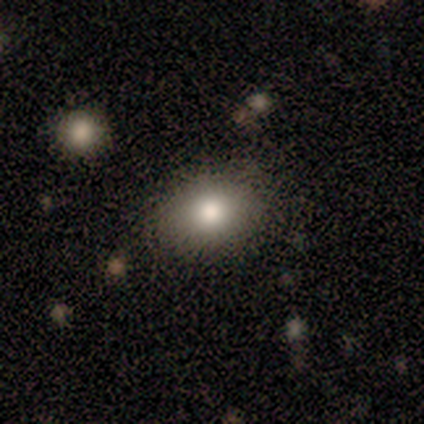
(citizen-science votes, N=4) Smooth or featured? smooth (100%)
How rounded? in between (100%)
Merging? none (100%)